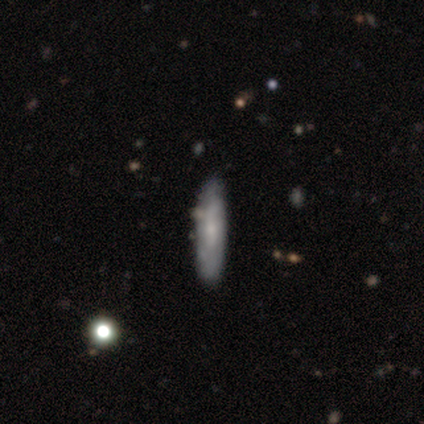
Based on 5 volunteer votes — A smooth galaxy with no disk features (80%) that is in between round and cigar-shaped (75%).

Vote fractions:
- Smooth or featured? smooth: 80% / featured or disk: 20% / star or artifact: 0%
- How rounded? in between: 75% / cigar-shaped: 25% / round: 0%
- Merging? none: 100% / minor disturbance: 0% / major disturbance: 0% / merger: 0%